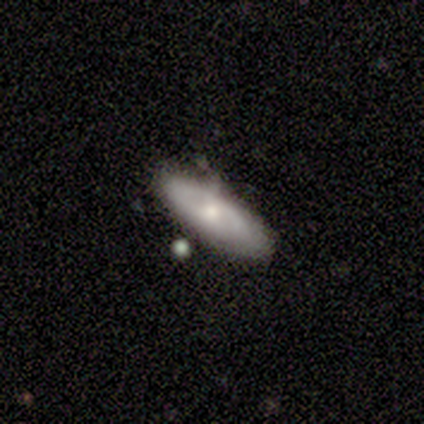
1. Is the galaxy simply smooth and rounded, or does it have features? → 80% smooth, 20% featured or disk, 0% star or artifact.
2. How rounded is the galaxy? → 75% in between, 25% cigar-shaped, 0% round.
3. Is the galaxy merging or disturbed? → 60% none, 20% minor disturbance, 20% merger, 0% major disturbance.